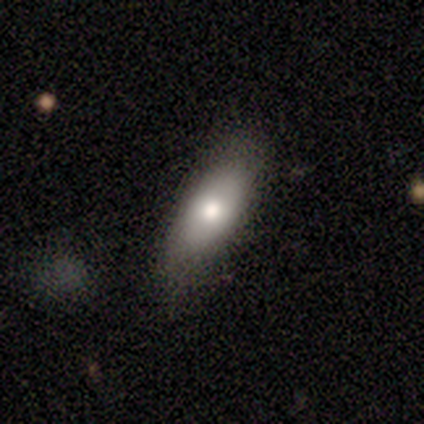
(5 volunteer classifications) smooth 60%, featured or disk 40%, star or artifact 0%. Down the decision tree: how rounded — in between (100%); merging — none (60%).